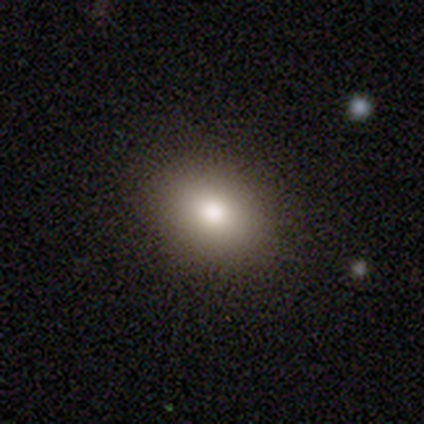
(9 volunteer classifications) Overall: smooth (56%; star or artifact 33%). How rounded: in between (100%). Merging: none (100%).